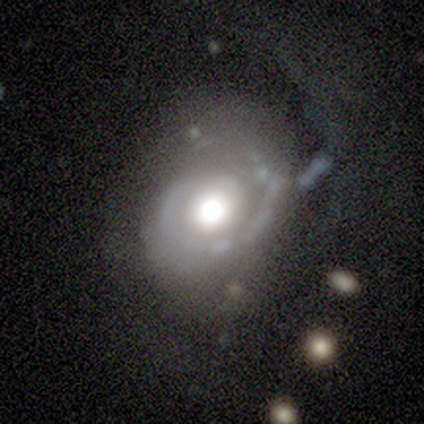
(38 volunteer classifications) A featured or disk galaxy (87%) with no bar (91%), 1 (55%) tight (58%) spiral arms (94%) and a large central bulge (48%).

Vote fractions:
- Smooth or featured? featured or disk: 87% / star or artifact: 11% / smooth: 3%
- Edge-on disk? no: 100% / yes: 0%
- Bar? no: 91% / weak: 9% / strong: 0%
- Spiral arms? yes: 94% / no: 6%
- Spiral winding? tight: 58% / medium: 26% / loose: 16%
- Spiral arm count? 1: 55% / 2: 29% / can't tell: 10% / 3: 3% / 4: 3% / more than 4: 0%
- Bulge size? large: 48% / moderate: 33% / dominant: 12% / none: 6% / small: 0%
- Merging? none: 44% / major disturbance: 29% / minor disturbance: 26% / merger: 0%